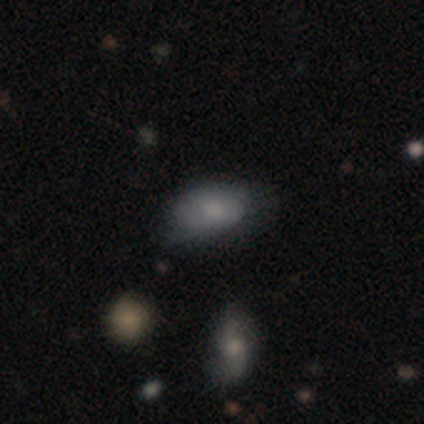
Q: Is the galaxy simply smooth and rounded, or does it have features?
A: smooth — 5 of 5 (100%).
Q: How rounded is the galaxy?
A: in between — 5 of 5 (100%).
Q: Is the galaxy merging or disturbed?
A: none — 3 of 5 (60%).